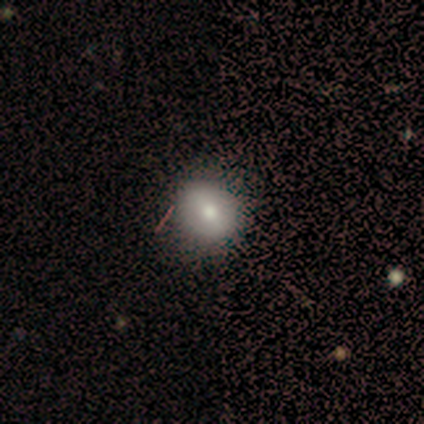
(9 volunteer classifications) Volunteers were most divided on "how rounded": round: 57%, in between: 43%, cigar-shaped: 0%. More confident: smooth or featured — smooth (78%); merging — none (75%).